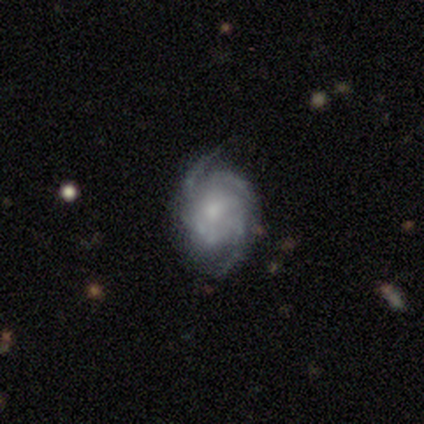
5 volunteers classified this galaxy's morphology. Smooth or featured? 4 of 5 (80%) said featured or disk. Edge-on disk? 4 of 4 (100%) said no. Bar? 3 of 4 (75%) said no. Spiral arms? 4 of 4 (100%) said yes. Spiral winding? 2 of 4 (50%) said medium. Spiral arm count? 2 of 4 (50%) said 2. Bulge size? 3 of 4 (75%) said moderate. Merging? 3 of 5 (60%) said none.